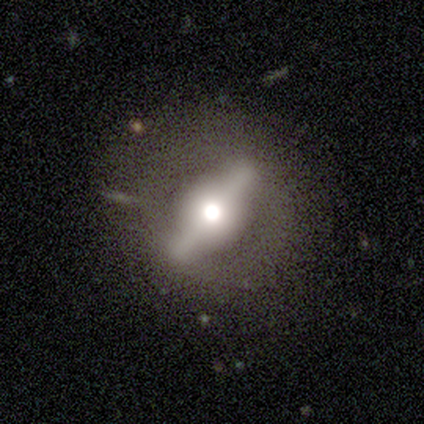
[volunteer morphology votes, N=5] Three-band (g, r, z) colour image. It shows a featured or disk galaxy (80%) viewed edge-on (50%, tied with no) with a rounded central bulge (100%). Merging: none (100%).